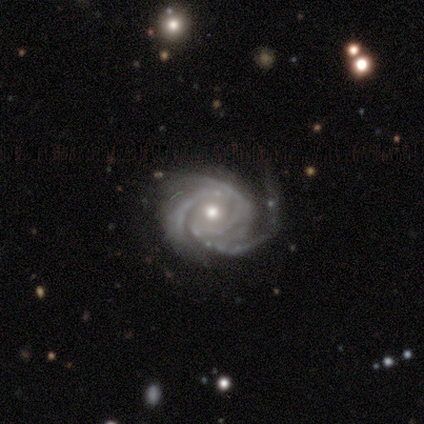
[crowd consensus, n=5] Smooth or featured?
  - featured or disk: 100% *
  - smooth: 0%
  - star or artifact: 0%
Edge-on disk?
  - no: 100% *
  - yes: 0%
Bar?
  - weak: 60% *
  - no: 40%
  - strong: 0%
Spiral arms?
  - yes: 100% *
  - no: 0%
Spiral winding?
  - medium: 60% *
  - tight: 40%
  - loose: 0%
Spiral arm count?
  - 3: 80% *
  - 4: 20%
  - 1: 0%
  - 2: 0%
  - more than 4: 0%
  - can't tell: 0%
Bulge size?
  - moderate: 80% *
  - small: 20%
  - dominant: 0%
  - large: 0%
  - none: 0%
Merging?
  - minor disturbance: 60% *
  - none: 20%
  - merger: 20%
  - major disturbance: 0%